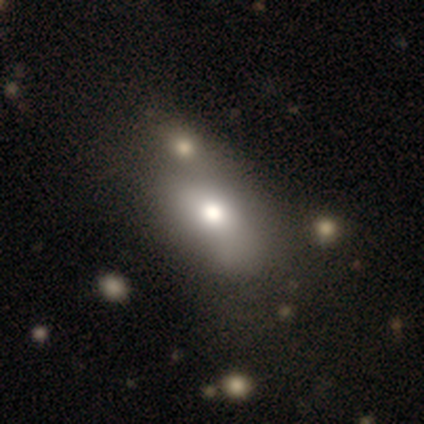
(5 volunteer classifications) Smooth or featured? 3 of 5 (60%) said smooth. How rounded? 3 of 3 (100%) said in between. Merging? 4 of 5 (80%) said none.